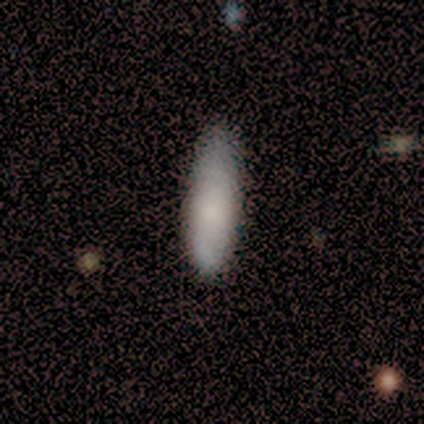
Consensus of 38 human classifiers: Morphology: type=smooth (82%); roundness=in between (61%); merging=none (51%).